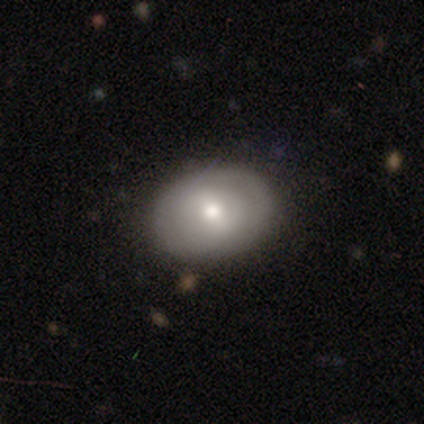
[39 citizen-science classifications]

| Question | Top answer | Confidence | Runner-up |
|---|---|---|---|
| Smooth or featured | smooth | 69% | featured or disk (31%) |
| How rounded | in between | 81% | round (19%) |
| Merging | none | 87% | minor disturbance (13%) |